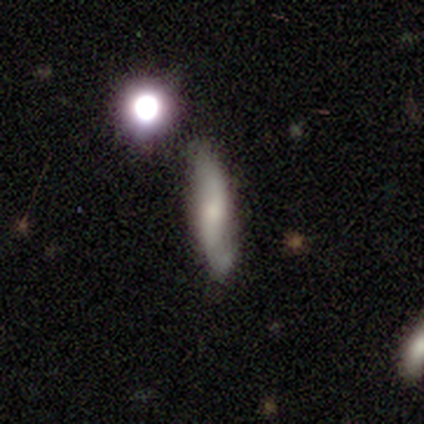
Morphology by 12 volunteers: Smooth or featured? featured or disk (58%)
Edge-on disk? no (71%)
Bar? weak (60%)
Spiral arms? yes (100%)
Spiral winding? loose (100%)
Spiral arm count? 2 (60%)
Bulge size? moderate (40%, tied with small)
Merging? none (55%)